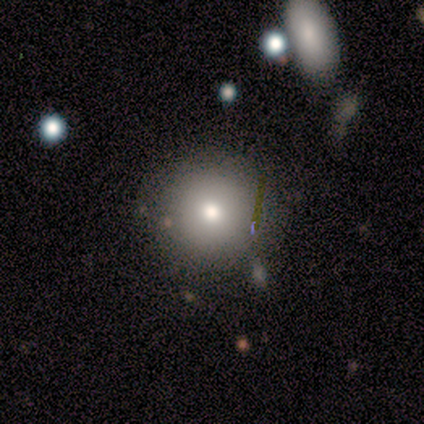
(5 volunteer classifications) smooth_or_featured: smooth (p=1.00)
how_rounded: round (p=1.00)
merging: none (p=0.60) [alt: minor disturbance p=0.40]